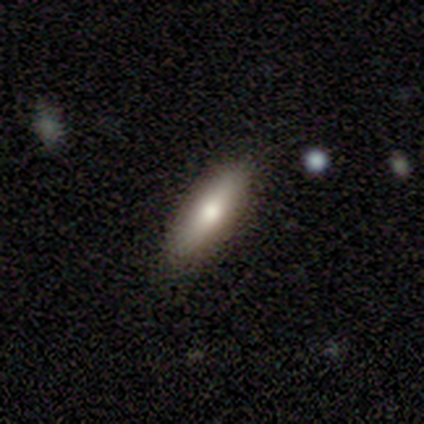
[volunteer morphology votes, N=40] Smooth or featured: smooth — 72% (star or artifact — 18%)
How rounded: cigar-shaped — 52% (in between — 48%)
Merging: none — 82% (minor disturbance — 18%)